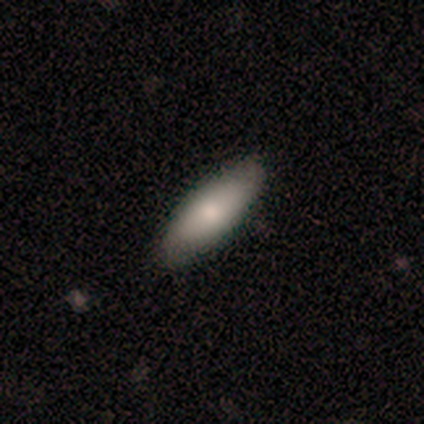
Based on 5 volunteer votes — Smooth or featured?
  - smooth: 80% *
  - star or artifact: 20%
  - featured or disk: 0%
How rounded?
  - in between: 50% * (tied)
  - cigar-shaped: 50% * (tied)
  - round: 0%
Merging?
  - none: 75% *
  - minor disturbance: 25%
  - major disturbance: 0%
  - merger: 0%